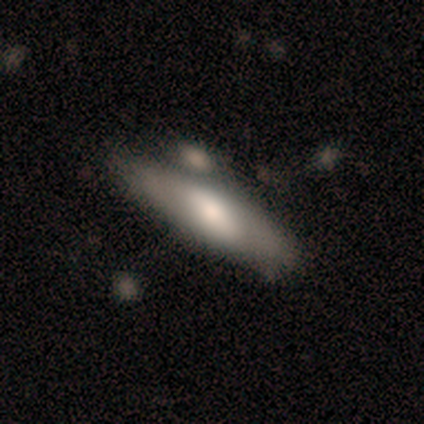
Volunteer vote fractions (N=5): A smooth galaxy with no disk features (80%) that is in between round and cigar-shaped (50%, tied with cigar-shaped).

Vote fractions:
- Smooth or featured? smooth: 80% / featured or disk: 20% / star or artifact: 0%
- How rounded? in between: 50% (tied) / cigar-shaped: 50% (tied) / round: 0%
- Merging? none: 80% / minor disturbance: 20% / major disturbance: 0% / merger: 0%